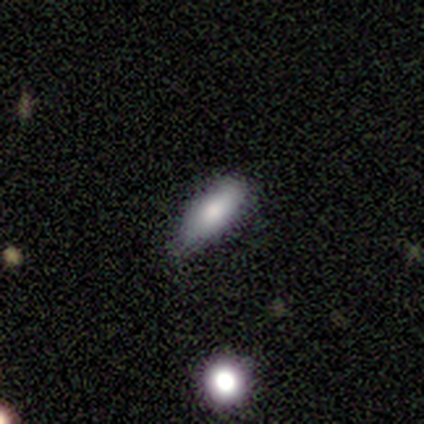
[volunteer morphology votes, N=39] smooth 79%, featured or disk 13%, star or artifact 8%. Down the decision tree: how rounded — in between (84%); merging — none (64%).